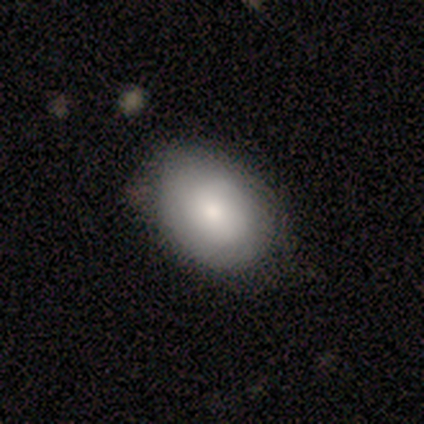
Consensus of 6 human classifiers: Smooth or featured? smooth (83%)
How rounded? in between (60%)
Merging? none (67%)